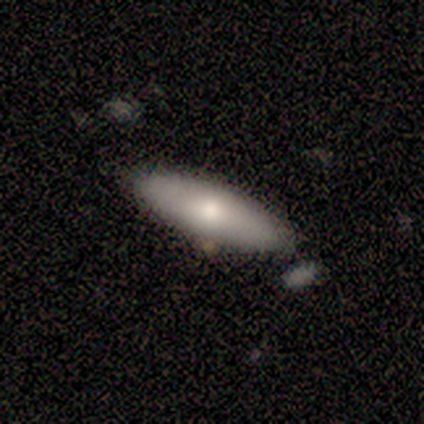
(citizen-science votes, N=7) Smooth or featured? 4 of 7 (57%) said smooth. How rounded? 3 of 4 (75%) said cigar-shaped. Merging? 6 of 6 (100%) said none.